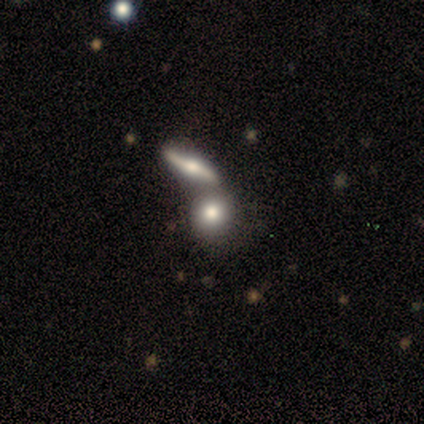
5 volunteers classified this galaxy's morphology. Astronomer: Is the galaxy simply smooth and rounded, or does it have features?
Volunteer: featured or disk — 80%.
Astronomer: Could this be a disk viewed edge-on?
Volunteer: yes — 50%, tied with no at 50%.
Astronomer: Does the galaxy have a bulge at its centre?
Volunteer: rounded — 100%.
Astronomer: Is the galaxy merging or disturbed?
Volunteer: merger — 80%.